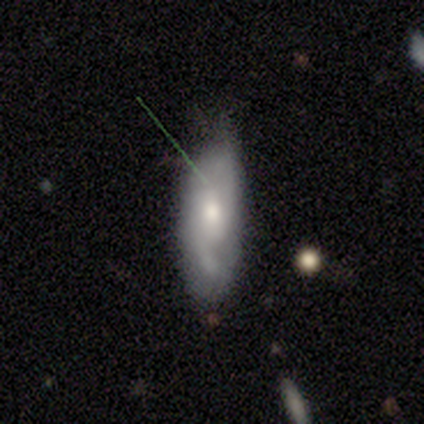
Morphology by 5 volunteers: Q: Smooth or featured?
A: featured or disk (60%); runner-up: smooth (40%)
Q: Edge-on disk?
A: no (100%)
Q: Bar?
A: no (67%); runner-up: weak (33%)
Q: Spiral arms?
A: yes (100%)
Q: Spiral winding?
A: loose (67%); runner-up: tight (33%)
Q: Spiral arm count?
A: 2 (100%)
Q: Bulge size?
A: moderate (100%)
Q: Merging?
A: none (60%); runner-up: minor disturbance (40%)